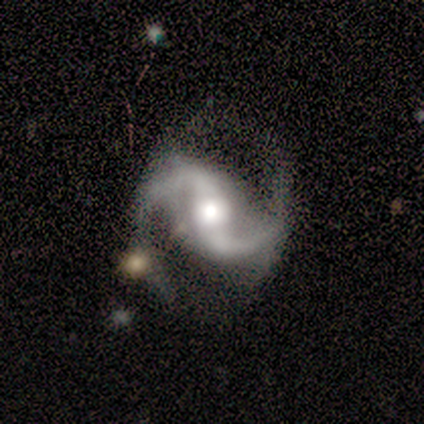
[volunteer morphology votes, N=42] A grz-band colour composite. It shows a featured or disk galaxy (95%) with a strong bar (49%), 2 (97%) medium (51%) spiral arms (100%) and a moderate central bulge (51%). Merging: none (65%).